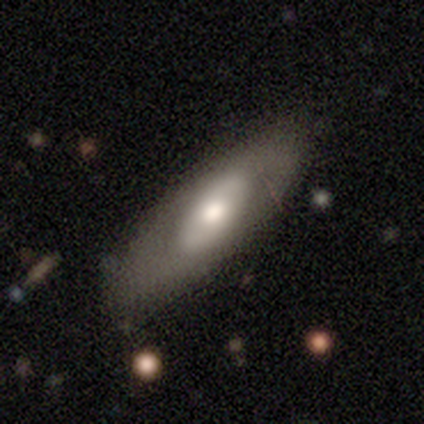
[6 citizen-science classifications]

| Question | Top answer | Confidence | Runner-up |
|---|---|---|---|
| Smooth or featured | smooth | 83% | featured or disk (17%) |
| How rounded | cigar-shaped | 60% | in between (40%) |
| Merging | none | 50% | tied: minor disturbance (50%) |